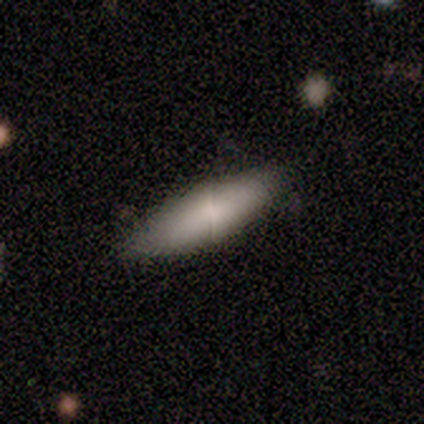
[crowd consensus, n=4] A smooth galaxy with no disk features (100%) that is cigar-shaped (75%). Merging: none (100%).